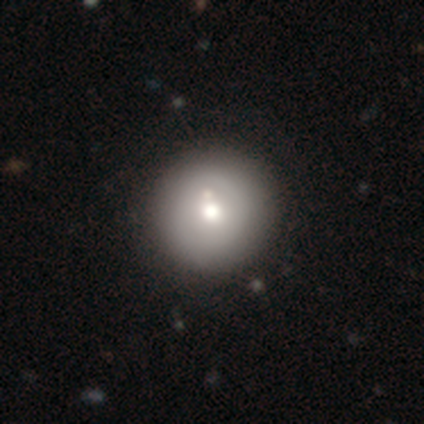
smooth-or-featured: smooth: 60% | featured or disk: 20% | star or artifact: 20%
  how-rounded: round: 100% | in between: 0% | cigar-shaped: 0%
  merging: none: 100% | minor disturbance: 0% | major disturbance: 0% | merger: 0%